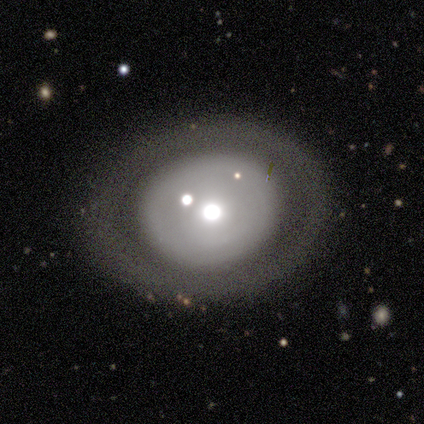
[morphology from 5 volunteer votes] This is likely a featured or disk galaxy (60%). It is clearly not viewed edge-on (100%). Bar: clearly no (100%). Spiral arm pattern: clearly no (100%). Central bulge: likely large (67%). Merging: clearly none (80%).